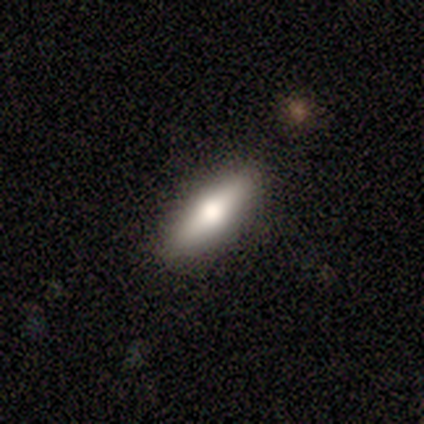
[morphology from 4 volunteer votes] Smooth or featured? 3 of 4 (75%) said featured or disk. Edge-on disk? 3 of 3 (100%) said yes. Edge-on bulge? 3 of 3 (100%) said rounded. Merging? 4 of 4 (100%) said none.